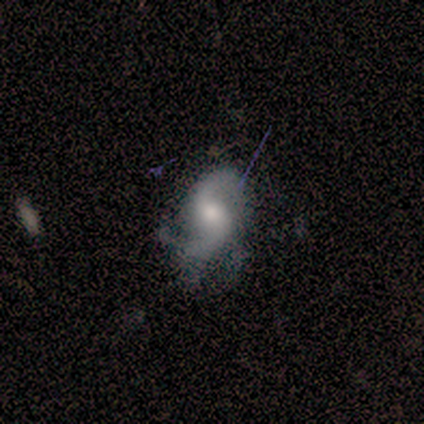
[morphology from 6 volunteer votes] type=featured or disk (100%); edge-on=no (100%); bar=weak (50%); spiral arms=yes (100%); winding=medium (50%, tied with loose); arm count=2 (100%); bulge=moderate (50%); merging=none (50%).